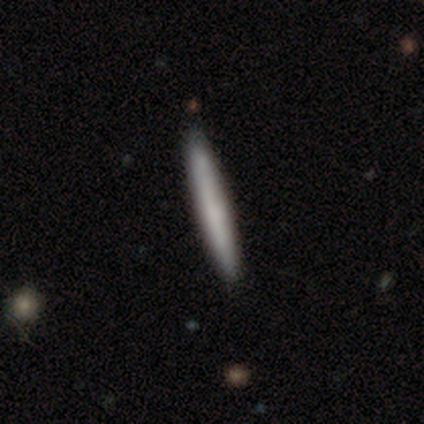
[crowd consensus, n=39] smooth_or_featured: smooth (p=0.67) [alt: featured or disk p=0.33]
how_rounded: cigar-shaped (p=0.96) [alt: round p=0.04]
merging: none (p=0.69) [alt: minor disturbance p=0.08]